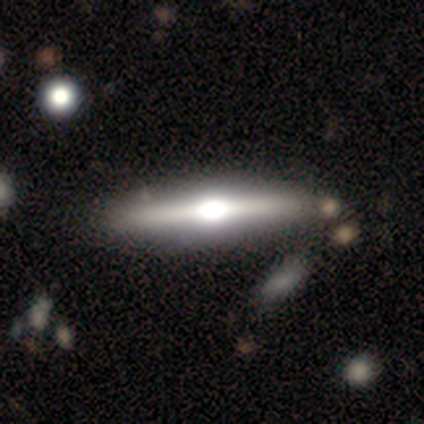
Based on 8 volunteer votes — A featured or disk galaxy (88%) viewed edge-on (100%) with a rounded central bulge (86%).

Vote fractions:
- Smooth or featured? featured or disk: 88% / smooth: 12% / star or artifact: 0%
- Edge-on disk? yes: 100% / no: 0%
- Edge-on bulge? rounded: 86% / boxy: 14% / none: 0%
- Merging? none: 88% / minor disturbance: 12% / major disturbance: 0% / merger: 0%